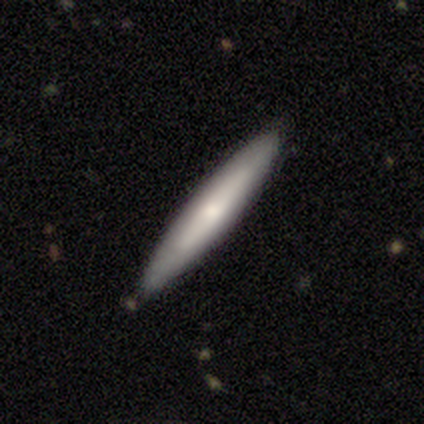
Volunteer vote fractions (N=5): smooth_or_featured: featured or disk (p=0.60) [alt: smooth p=0.40]
disk_edge_on: yes (p=1.00)
edge_on_bulge: none (p=1.00)
merging: none (p=0.80) [alt: minor disturbance p=0.20]